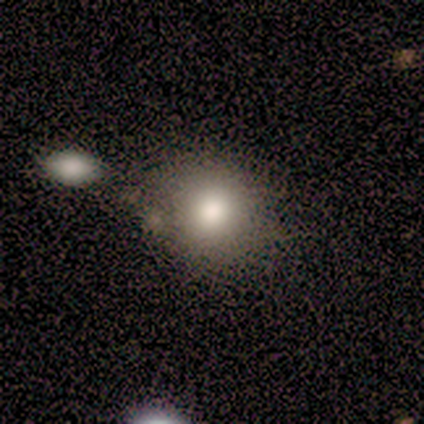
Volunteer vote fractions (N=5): Q: Smooth or featured?
A: smooth (80%); runner-up: featured or disk (20%)
Q: How rounded?
A: in between (75%); runner-up: round (25%)
Q: Merging?
A: minor disturbance (60%); runner-up: none (40%)